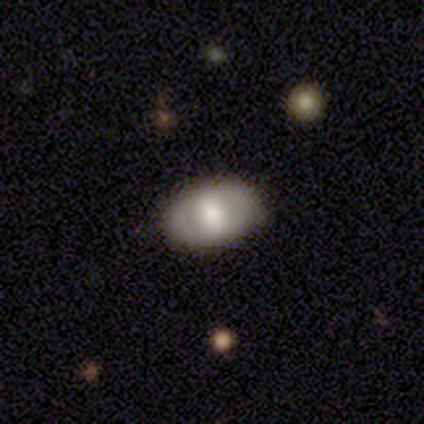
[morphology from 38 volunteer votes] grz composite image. It shows a smooth galaxy with no disk features (63%) that is in between round and cigar-shaped (92%). Merging: none (81%).